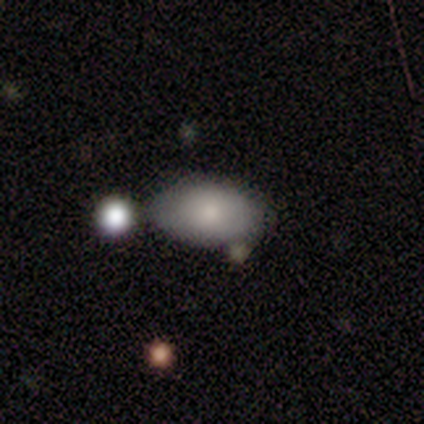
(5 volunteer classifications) Smooth or featured?
  - smooth: 80% *
  - featured or disk: 20%
  - star or artifact: 0%
How rounded?
  - in between: 100% *
  - round: 0%
  - cigar-shaped: 0%
Merging?
  - none: 60% *
  - merger: 40%
  - minor disturbance: 0%
  - major disturbance: 0%